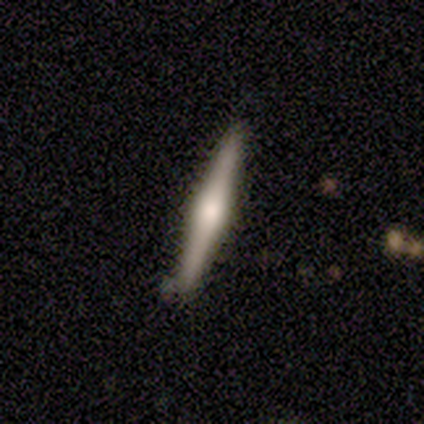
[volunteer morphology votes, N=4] smooth 50% (tied), featured or disk 50% (tied), star or artifact 0%. Down the decision tree: how rounded — cigar-shaped (100%); merging — none (100%).